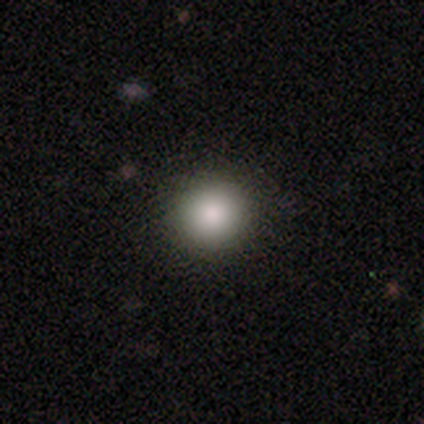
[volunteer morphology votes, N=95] Smooth or featured? 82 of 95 (86%) said smooth. How rounded? 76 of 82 (93%) said round. Merging? 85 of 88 (97%) said none.